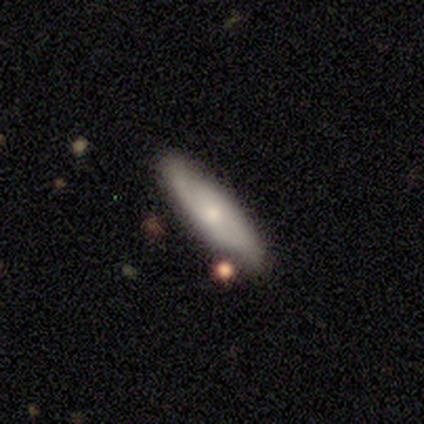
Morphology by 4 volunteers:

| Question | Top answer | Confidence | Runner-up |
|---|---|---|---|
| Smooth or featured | featured or disk | 100% | — |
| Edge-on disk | yes | 50% | tied: no (50%) |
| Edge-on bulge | rounded | 100% | — |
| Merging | none | 100% | — |